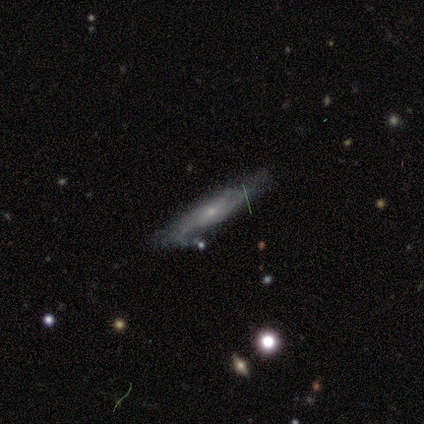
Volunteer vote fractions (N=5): This is clearly a smooth galaxy (80%). How rounded: clearly cigar-shaped (100%). Merging: clearly none (80%).